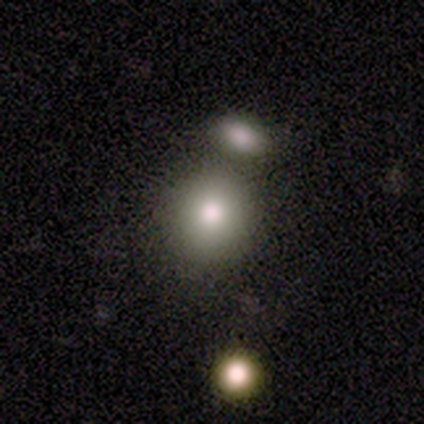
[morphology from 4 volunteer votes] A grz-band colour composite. It shows a smooth galaxy with no disk features (75%) that is round (100%). Merging: none (100%).